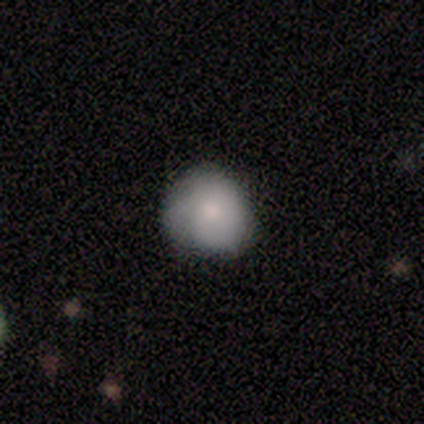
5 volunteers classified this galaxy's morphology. This is clearly a smooth galaxy (100%). How rounded: clearly round (100%). Merging: clearly none (80%).